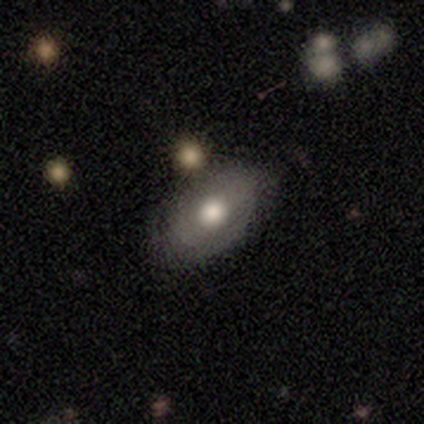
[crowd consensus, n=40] smooth_or_featured: smooth (p=0.65) [alt: featured or disk p=0.30]
how_rounded: in between (p=0.85) [alt: round p=0.15]
merging: none (p=0.45) [alt: minor disturbance p=0.16]